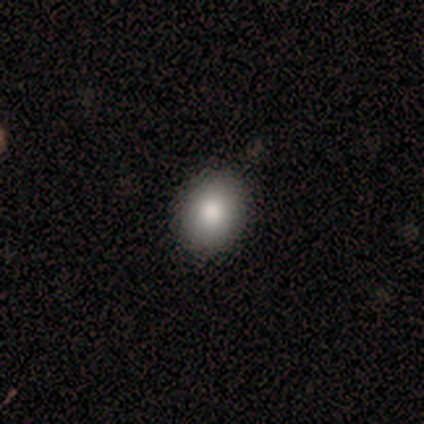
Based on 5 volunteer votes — A smooth galaxy with no disk features (60%) that is round (67%).

Vote fractions:
- Smooth or featured? smooth: 60% / featured or disk: 20% / star or artifact: 20%
- How rounded? round: 67% / in between: 33% / cigar-shaped: 0%
- Merging? none: 100% / minor disturbance: 0% / major disturbance: 0% / merger: 0%